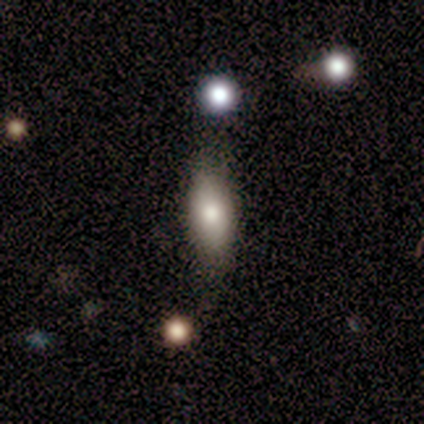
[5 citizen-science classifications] A smooth galaxy with no disk features (100%) that is in between round and cigar-shaped (80%). Merging: none (60%).